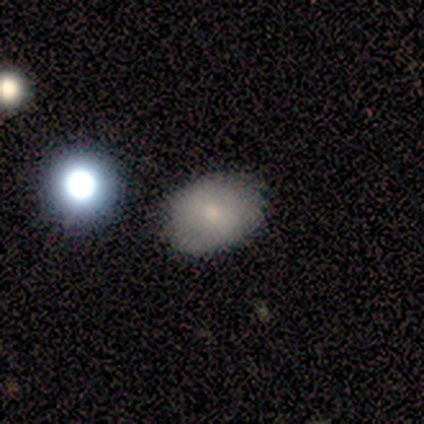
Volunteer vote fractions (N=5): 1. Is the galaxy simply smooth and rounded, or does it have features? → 80% smooth, 20% featured or disk, 0% star or artifact.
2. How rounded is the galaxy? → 75% round, 25% in between, 0% cigar-shaped.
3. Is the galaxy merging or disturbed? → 80% none, 20% major disturbance, 0% minor disturbance, 0% merger.